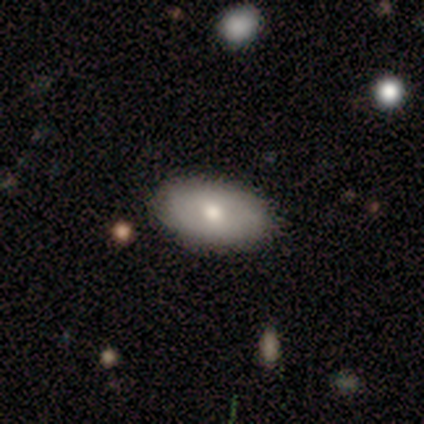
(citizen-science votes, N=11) Smooth or featured?
  - smooth: 73% *
  - featured or disk: 27%
  - star or artifact: 0%
How rounded?
  - in between: 100% *
  - round: 0%
  - cigar-shaped: 0%
Merging?
  - none: 91% *
  - minor disturbance: 9%
  - major disturbance: 0%
  - merger: 0%